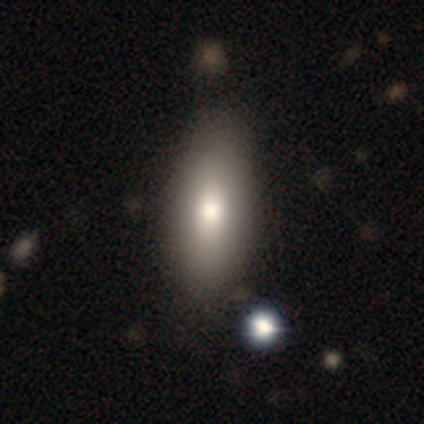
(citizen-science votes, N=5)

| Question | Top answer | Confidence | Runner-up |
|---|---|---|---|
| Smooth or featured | smooth | 80% | featured or disk (20%) |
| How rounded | in between | 100% | — |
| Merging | none | 100% | — |